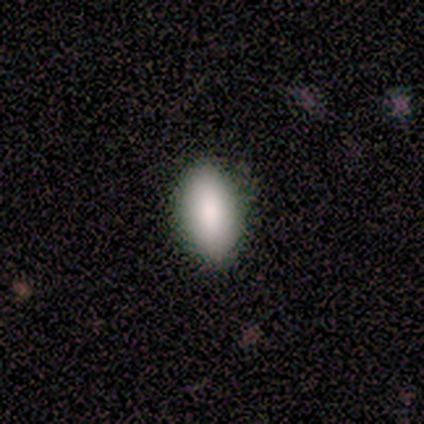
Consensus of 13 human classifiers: Smooth or featured? smooth (92%)
How rounded? in between (100%)
Merging? none (83%)